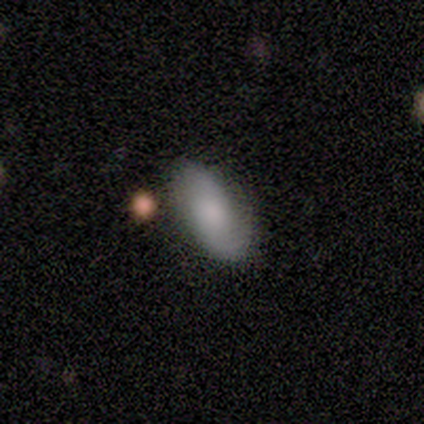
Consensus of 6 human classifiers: Morphology: type=smooth (67%); roundness=in between (100%); merging=none (83%).